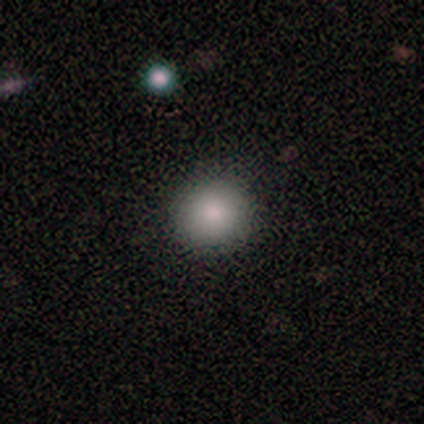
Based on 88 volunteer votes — Smooth or featured?
  - smooth: 88% *
  - star or artifact: 8%
  - featured or disk: 5%
How rounded?
  - round: 91% *
  - in between: 9%
  - cigar-shaped: 0%
Merging?
  - none: 93% *
  - minor disturbance: 6%
  - major disturbance: 1%
  - merger: 0%